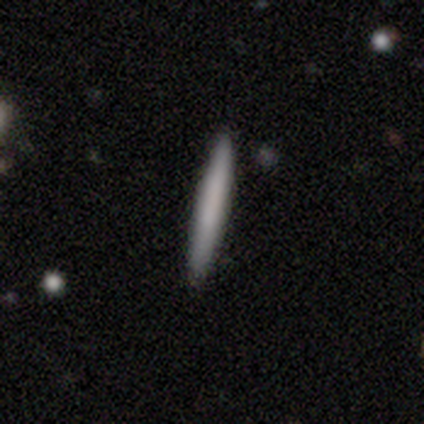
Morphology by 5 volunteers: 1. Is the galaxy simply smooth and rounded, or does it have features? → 100% smooth, 0% featured or disk, 0% star or artifact.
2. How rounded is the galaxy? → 100% cigar-shaped, 0% round, 0% in between.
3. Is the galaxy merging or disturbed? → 100% none, 0% minor disturbance, 0% major disturbance, 0% merger.